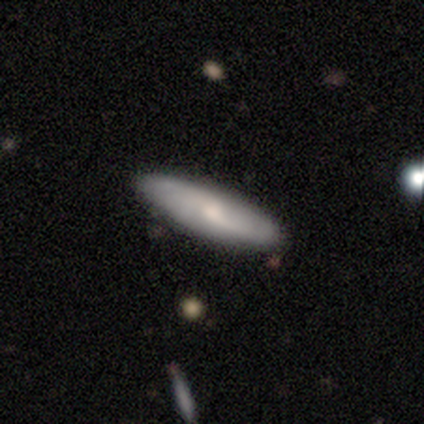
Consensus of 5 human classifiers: Volunteers were most divided on "smooth or featured": featured or disk: 60%, smooth: 40%, star or artifact: 0%. More confident: edge-on disk — no (100%); spiral winding — loose (100%); spiral arm count — 2 (100%); merging — none (100%); bar — weak (67%); spiral arms — yes (67%); bulge size — moderate (67%).